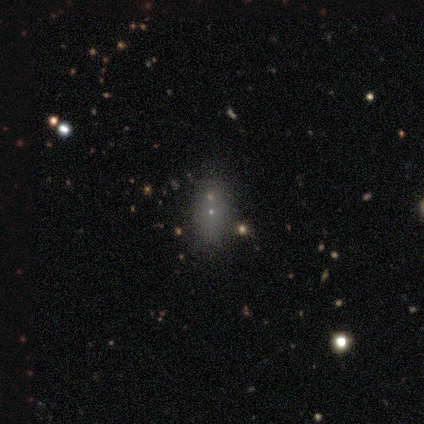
Smooth or featured? 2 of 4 (50%) said featured or disk. Edge-on disk? 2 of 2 (100%) said no. Bar? 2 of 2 (100%) said no. Spiral arms? 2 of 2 (100%) said no. Bulge size? 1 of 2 (50%, tied with small) said moderate. Merging? 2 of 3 (67%) said none.